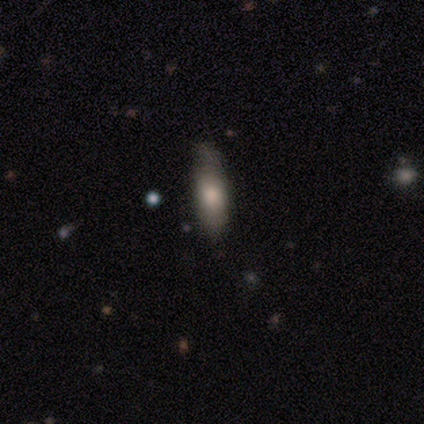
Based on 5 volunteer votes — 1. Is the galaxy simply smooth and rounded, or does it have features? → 100% smooth, 0% featured or disk, 0% star or artifact.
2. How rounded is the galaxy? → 60% in between, 40% cigar-shaped, 0% round.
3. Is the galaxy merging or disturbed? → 100% none, 0% minor disturbance, 0% major disturbance, 0% merger.